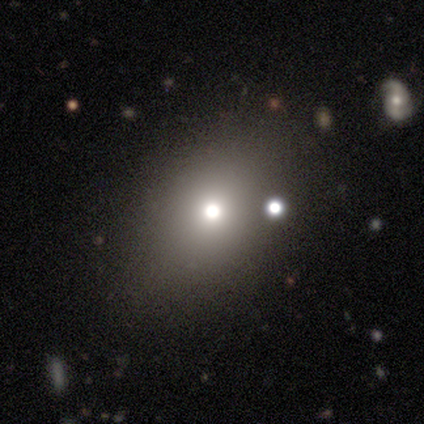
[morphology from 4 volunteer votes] A smooth galaxy with no disk features (75%) that is in between round and cigar-shaped (67%). Merging: none (33%, tied with minor disturbance and merger).